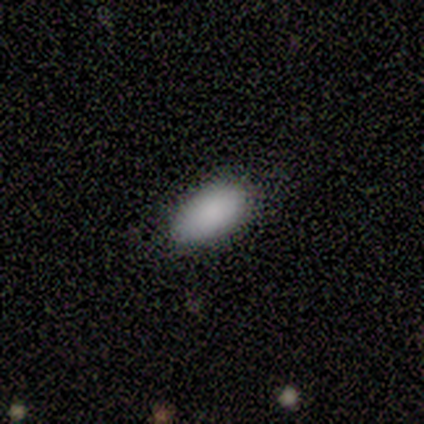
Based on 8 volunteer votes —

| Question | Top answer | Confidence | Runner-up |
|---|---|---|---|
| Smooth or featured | smooth | 75% | featured or disk (12%) |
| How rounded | in between | 100% | — |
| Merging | none | 86% | minor disturbance (14%) |